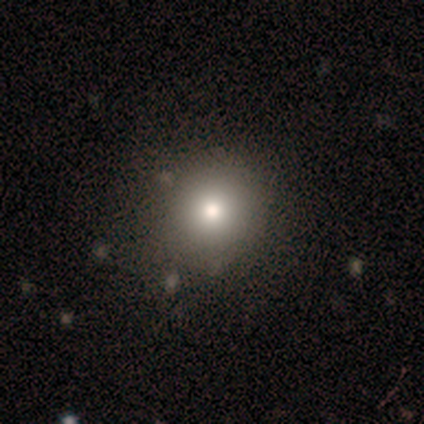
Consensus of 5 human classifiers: Volunteers were most divided on "how rounded": round: 80%, in between: 20%, cigar-shaped: 0%. More confident: smooth or featured — smooth (100%); merging — none (80%).